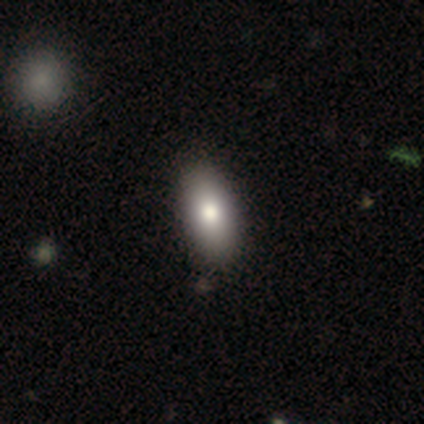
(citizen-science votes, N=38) Smooth or featured? smooth (87%)
How rounded? in between (91%)
Merging? none (76%)